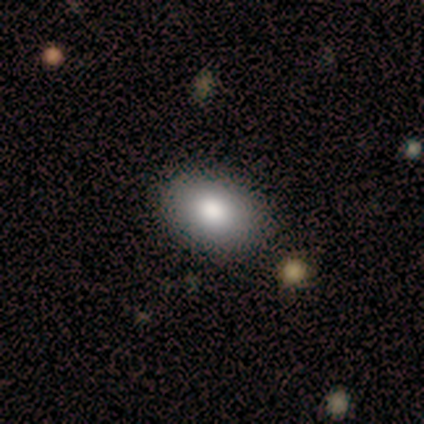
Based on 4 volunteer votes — Smooth or featured? 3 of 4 (75%) said smooth. How rounded? 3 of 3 (100%) said in between. Merging? 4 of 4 (100%) said none.